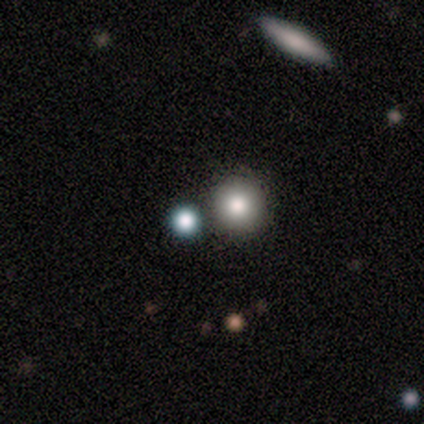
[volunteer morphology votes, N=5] Smooth or featured? star or artifact (60%)